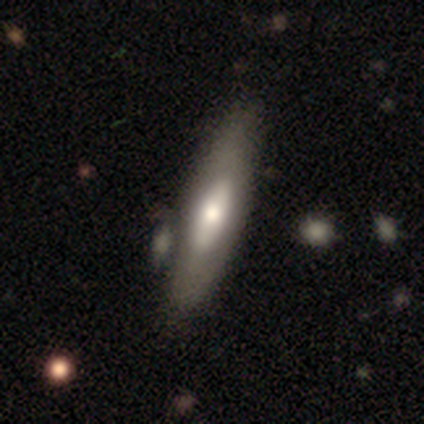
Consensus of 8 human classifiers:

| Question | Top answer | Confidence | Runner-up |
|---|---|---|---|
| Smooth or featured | smooth | 62% | featured or disk (25%) |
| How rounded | cigar-shaped | 60% | in between (40%) |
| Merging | none | 43% | tied: minor disturbance (43%) |